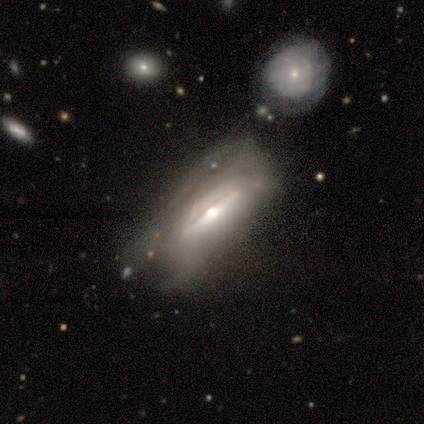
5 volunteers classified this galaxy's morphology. featured or disk 100%, smooth 0%, star or artifact 0%. Down the decision tree: edge-on disk — yes (60%); edge-on bulge — rounded (67%); merging — minor disturbance (40%).